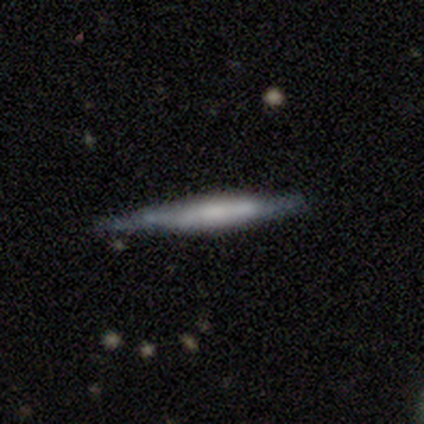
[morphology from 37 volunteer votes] A smooth galaxy with no disk features (46%, tied with featured or disk) that is cigar-shaped (94%). Merging: none (71%).